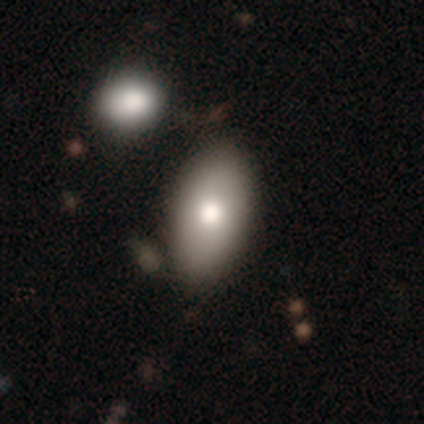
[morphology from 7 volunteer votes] This is clearly a smooth galaxy (86%). How rounded: clearly in between (100%). Merging: likely none (71%).